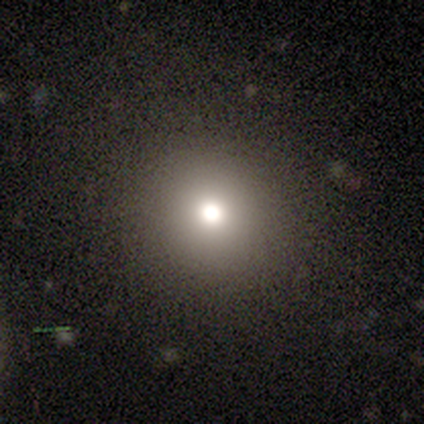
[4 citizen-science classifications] A smooth galaxy with no disk features (50%) that is round (100%).

Vote fractions:
- Smooth or featured? smooth: 50% / featured or disk: 25% / star or artifact: 25%
- How rounded? round: 100% / in between: 0% / cigar-shaped: 0%
- Merging? none: 67% / major disturbance: 33% / minor disturbance: 0% / merger: 0%